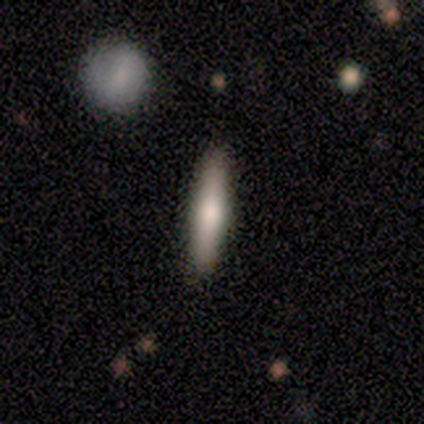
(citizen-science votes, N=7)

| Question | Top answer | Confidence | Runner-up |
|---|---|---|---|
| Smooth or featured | featured or disk | 57% | smooth (43%) |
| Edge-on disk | yes | 100% | — |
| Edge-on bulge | rounded | 100% | — |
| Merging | none | 71% | minor disturbance (29%) |